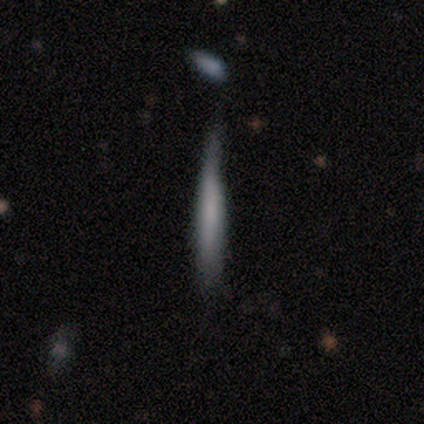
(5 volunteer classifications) smooth_or_featured: featured or disk (p=0.60) [alt: smooth p=0.20]
disk_edge_on: yes (p=1.00)
edge_on_bulge: boxy (p=0.33) [tied with: none p=0.33, rounded p=0.33]
merging: minor disturbance (p=0.75) [alt: major disturbance p=0.25]